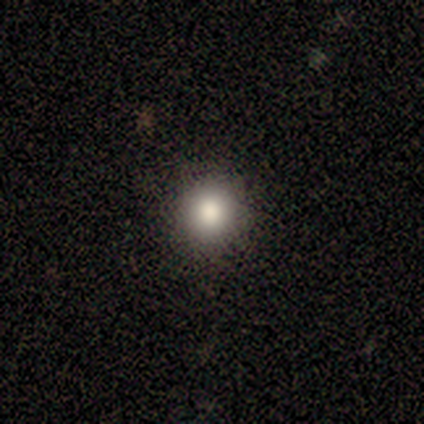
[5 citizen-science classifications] smooth_or_featured: smooth (p=0.80) [alt: featured or disk p=0.20]
how_rounded: round (p=1.00)
merging: none (p=1.00)